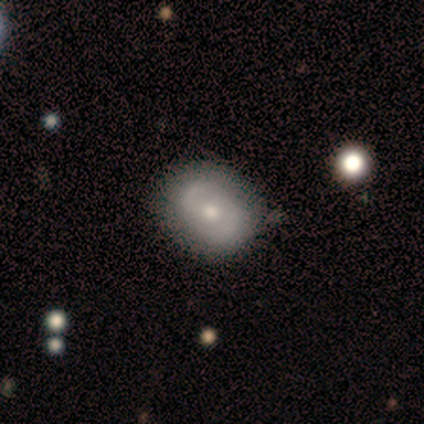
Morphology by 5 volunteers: Smooth or featured? 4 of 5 (80%) said featured or disk. Edge-on disk? 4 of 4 (100%) said no. Bar? 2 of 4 (50%, tied with no) said weak. Spiral arms? 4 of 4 (100%) said yes. Spiral winding? 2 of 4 (50%) said medium. Spiral arm count? 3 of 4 (75%) said 2. Bulge size? 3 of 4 (75%) said small. Merging? 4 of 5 (80%) said none.